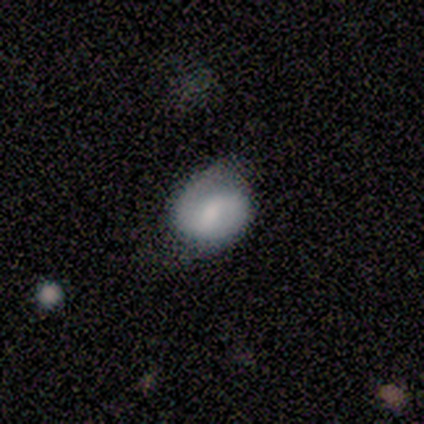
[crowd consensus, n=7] Smooth or featured: featured or disk — 57% (smooth — 43%)
Edge-on disk: no — 100%
Bar: weak — 75% (no — 25%)
Spiral arms: yes — 100%
Spiral winding: tight — 50% (tied with loose — 50%)
Spiral arm count: 2 — 75% (1 — 25%)
Bulge size: small — 50% (large — 25%)
Merging: minor disturbance — 57% (none — 43%)